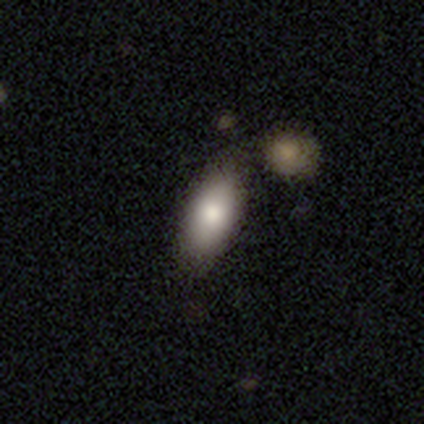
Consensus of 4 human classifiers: A smooth galaxy with no disk features (75%) that is in between round and cigar-shaped (100%). Merging: none (67%).